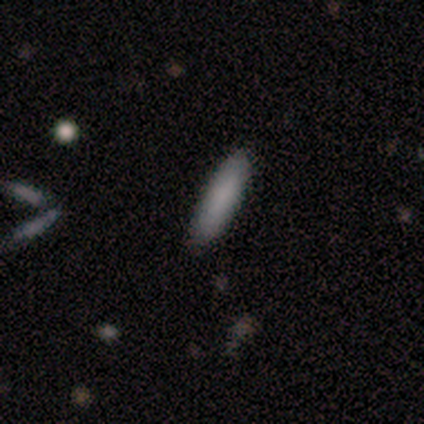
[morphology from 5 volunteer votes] Q: Smooth or featured?
A: smooth (100%)
Q: How rounded?
A: cigar-shaped (60%); runner-up: in between (40%)
Q: Merging?
A: none (100%)